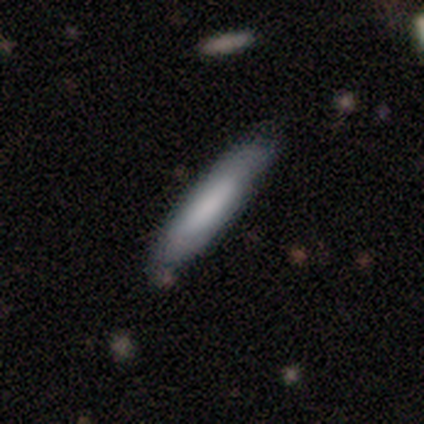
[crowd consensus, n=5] smooth 60%, featured or disk 40%, star or artifact 0%. Down the decision tree: how rounded — cigar-shaped (67%); merging — none (60%).